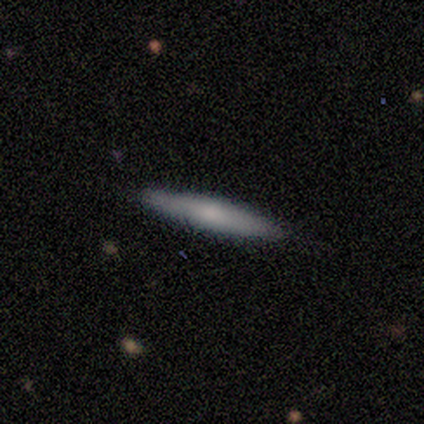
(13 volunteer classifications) Morphology: type=featured or disk (69%); edge-on=yes (89%); edge-on bulge=none (50%, tied with rounded); merging=none (92%).